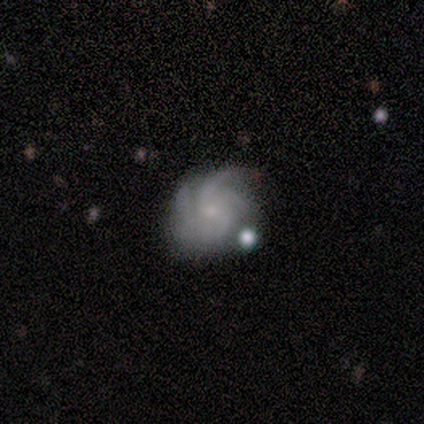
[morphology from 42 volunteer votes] Overall: featured or disk (98%). Edge-on disk: no (95%). Bar: no (79%). Spiral arms: yes (95%). Spiral arm count: 3 (32%, tied with 4). Spiral winding: medium (51%; tight 41%). Bulge size: small (72%). Merging: none (52%; minor disturbance 29%).